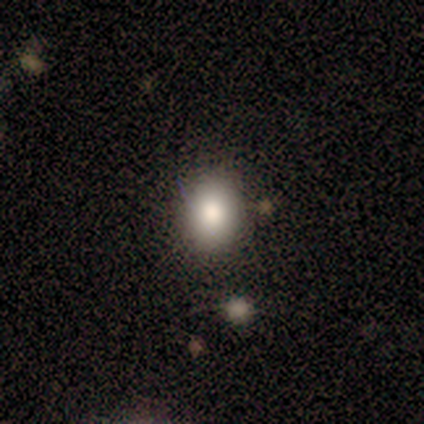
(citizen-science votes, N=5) Smooth or featured? 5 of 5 (100%) said smooth. How rounded? 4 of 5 (80%) said round. Merging? 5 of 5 (100%) said none.